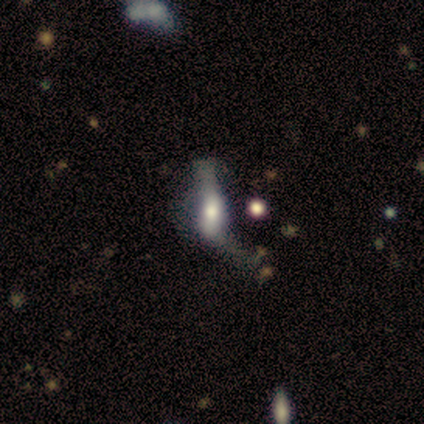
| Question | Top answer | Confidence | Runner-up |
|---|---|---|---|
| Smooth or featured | featured or disk | 55% | smooth (36%) |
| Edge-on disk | no | 100% | — |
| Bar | no | 67% | strong (17%) |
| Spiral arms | no | 67% | yes (33%) |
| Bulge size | moderate | 67% | large (17%) |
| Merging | major disturbance | 60% | none (20%) |